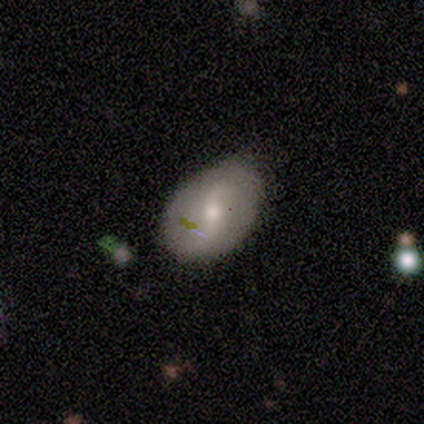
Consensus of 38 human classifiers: Morphology: type=featured or disk (53%); edge-on=no (95%); bar=no (47%); spiral arms=yes (89%); winding=loose (59%); arm count=2 (100%); bulge=moderate (58%); merging=none (50%).